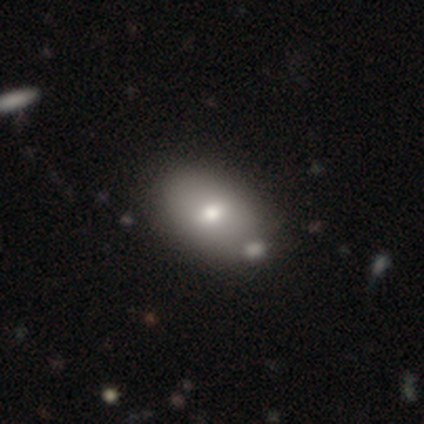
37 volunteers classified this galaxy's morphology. Q: Smooth or featured?
A: smooth (68%); runner-up: featured or disk (32%)
Q: How rounded?
A: in between (92%); runner-up: round (4%)
Q: Merging?
A: none (54%); runner-up: merger (14%)